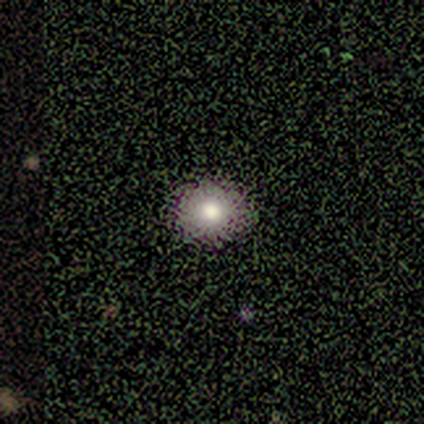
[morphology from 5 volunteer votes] smooth_or_featured: smooth (p=0.60) [alt: featured or disk p=0.20]
how_rounded: round (p=0.67) [alt: in between p=0.33]
merging: none (p=1.00)